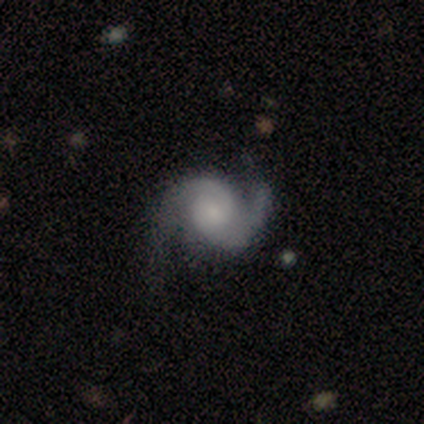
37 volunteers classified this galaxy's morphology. type=featured or disk (97%); edge-on=no (97%); bar=no (71%); spiral arms=yes (97%); winding=medium (56%); arm count=2 (94%); bulge=small (54%); merging=none (76%).